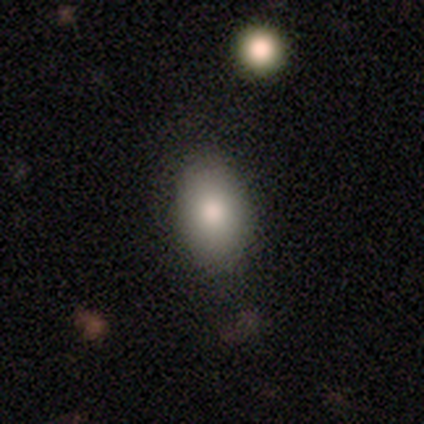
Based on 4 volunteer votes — A smooth galaxy with no disk features (100%) that is in between round and cigar-shaped (75%). Merging: none (75%).